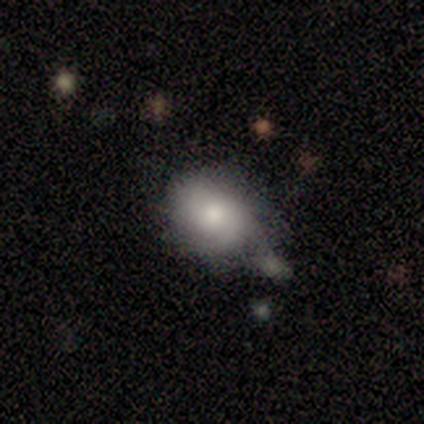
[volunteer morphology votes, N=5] smooth_or_featured: smooth (p=0.60) [alt: featured or disk p=0.40]
how_rounded: round (p=0.67) [alt: in between p=0.33]
merging: none (p=0.80) [alt: minor disturbance p=0.20]